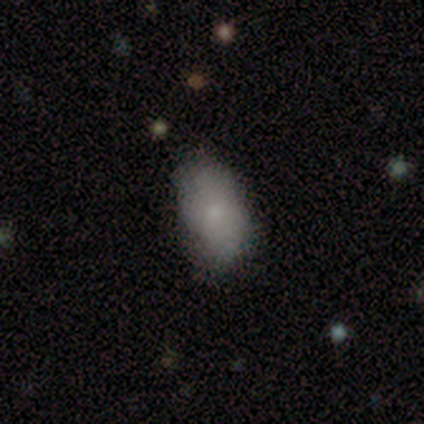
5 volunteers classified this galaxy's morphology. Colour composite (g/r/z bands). It shows a smooth galaxy with no disk features (100%) that is in between round and cigar-shaped (100%). Merging: minor disturbance (60%).